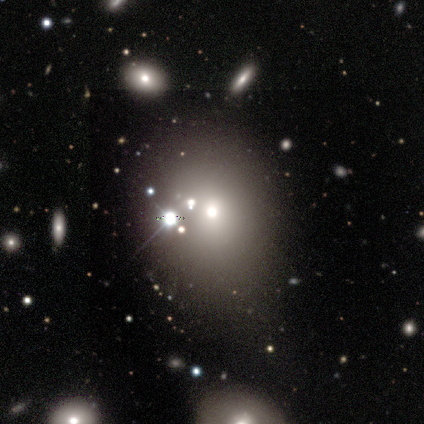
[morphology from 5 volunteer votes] A smooth galaxy with no disk features (80%) that is in between round and cigar-shaped (75%). Merging: none (40%, tied with minor disturbance).